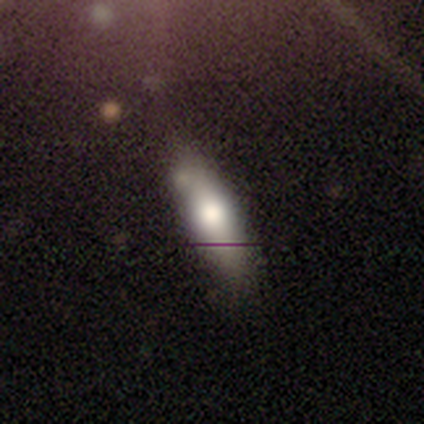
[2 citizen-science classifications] Smooth or featured?
  - smooth: 100% *
  - featured or disk: 0%
  - star or artifact: 0%
How rounded?
  - in between: 100% *
  - round: 0%
  - cigar-shaped: 0%
Merging?
  - none: 100% *
  - minor disturbance: 0%
  - major disturbance: 0%
  - merger: 0%